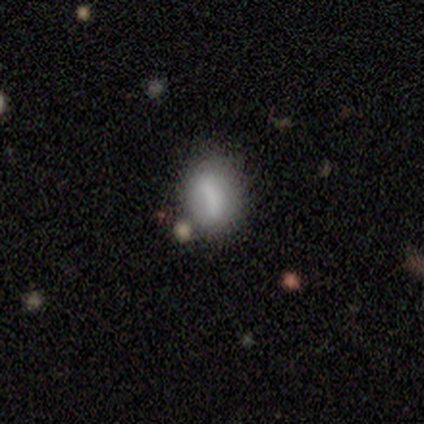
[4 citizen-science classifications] This appears to be a smooth galaxy with no disk features (100%) that is round (50%, tied with in between). Merging: none (50%).